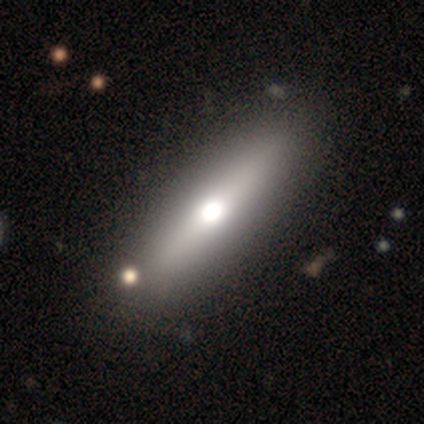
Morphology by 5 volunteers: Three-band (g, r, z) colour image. It shows a smooth galaxy with no disk features (60%) that is in between round and cigar-shaped (67%). Merging: none (100%).